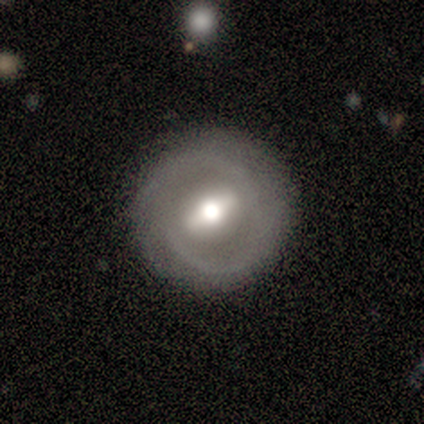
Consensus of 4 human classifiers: This appears to be a smooth galaxy with no disk features (75%) that is round (100%). Merging: none (100%).